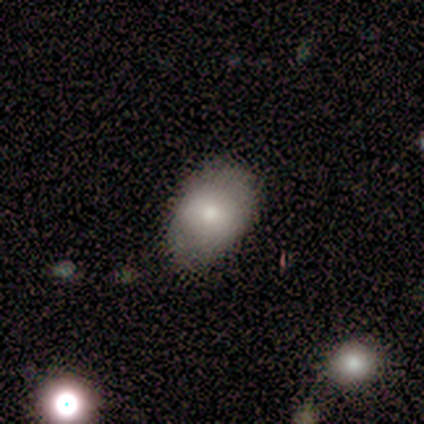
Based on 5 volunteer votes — Overall: smooth (100%). How rounded: in between (60%; round 40%). Merging: none (100%).